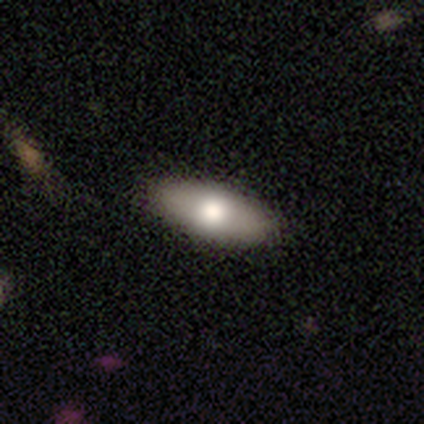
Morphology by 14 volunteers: A smooth galaxy with no disk features (71%) that is in between round and cigar-shaped (60%). Merging: none (86%).